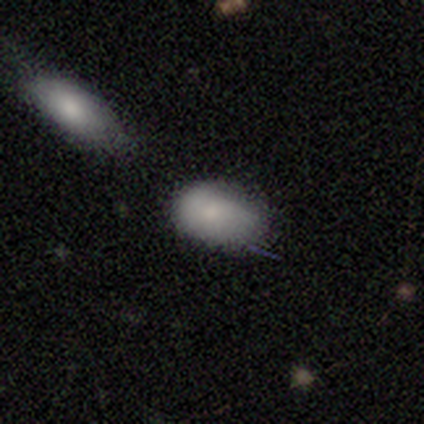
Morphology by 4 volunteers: This is clearly a smooth galaxy (100%). How rounded: likely in between (75%). Merging: marginally none (25%, tied with minor disturbance, major disturbance and merger).